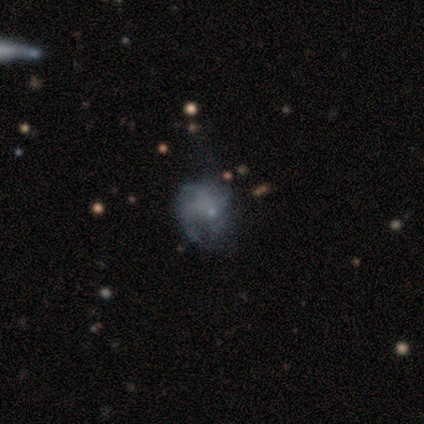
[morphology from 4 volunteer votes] Smooth or featured: smooth — 75% (featured or disk — 25%)
How rounded: round — 100%
Merging: none — 75% (major disturbance — 25%)